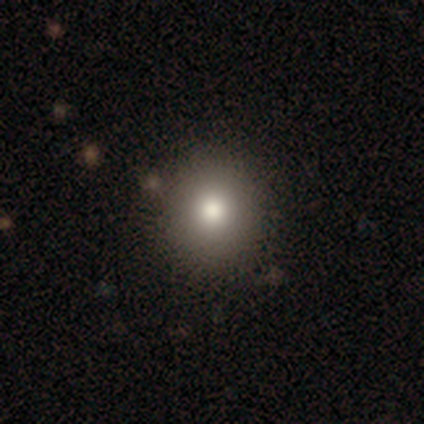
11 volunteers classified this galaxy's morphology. smooth 55%, featured or disk 27%, star or artifact 18%. Down the decision tree: how rounded — round (67%); merging — none (89%).